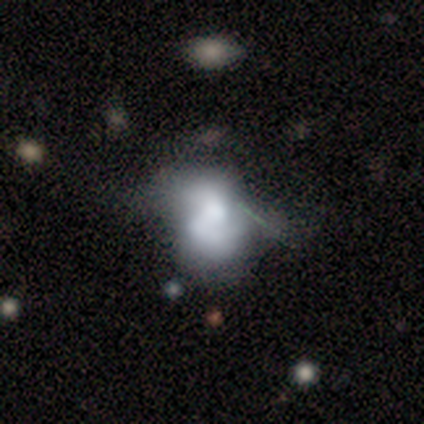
Q: Smooth or featured?
A: featured or disk (62%); runner-up: smooth (25%)
Q: Edge-on disk?
A: no (100%)
Q: Bar?
A: weak (60%); runner-up: no (40%)
Q: Spiral arms?
A: no (60%); runner-up: yes (40%)
Q: Bulge size?
A: moderate (80%); runner-up: small (20%)
Q: Merging?
A: minor disturbance (57%); runner-up: none (29%)